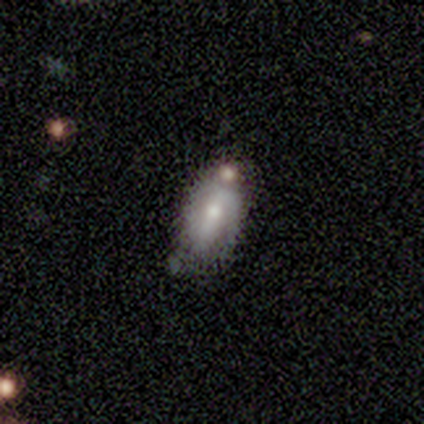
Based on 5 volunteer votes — Smooth or featured: featured or disk — 60% (smooth — 40%)
Edge-on disk: no — 100%
Bar: weak — 67% (no — 33%)
Spiral arms: yes — 67% (no — 33%)
Spiral winding: medium — 50% (tied with loose — 50%)
Spiral arm count: 1 — 100%
Bulge size: moderate — 67% (small — 33%)
Merging: none — 40% (minor disturbance — 20%)